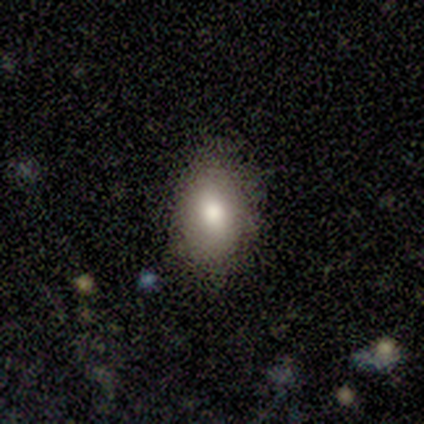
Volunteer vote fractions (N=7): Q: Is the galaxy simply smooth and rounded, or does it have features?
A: smooth — 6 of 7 (86%).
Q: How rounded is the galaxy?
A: in between — 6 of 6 (100%).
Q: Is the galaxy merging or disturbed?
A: none — 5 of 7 (71%).